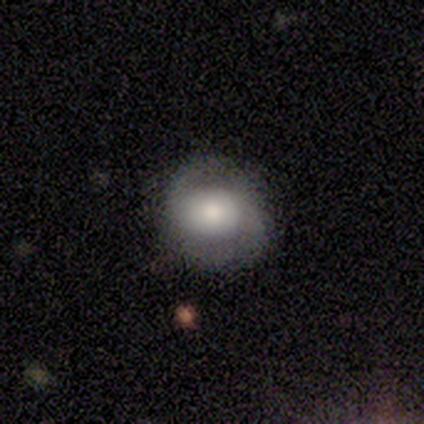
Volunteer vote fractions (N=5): Volunteers were most divided on "smooth or featured": smooth: 60%, featured or disk: 40%, star or artifact: 0%. More confident: how rounded — round (100%); merging — none (100%).